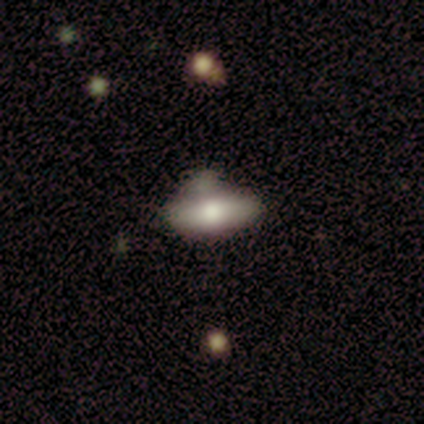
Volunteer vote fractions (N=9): Q: Smooth or featured?
A: smooth (78%); runner-up: featured or disk (22%)
Q: How rounded?
A: in between (71%); runner-up: cigar-shaped (29%)
Q: Merging?
A: merger (44%); runner-up: none (22%)